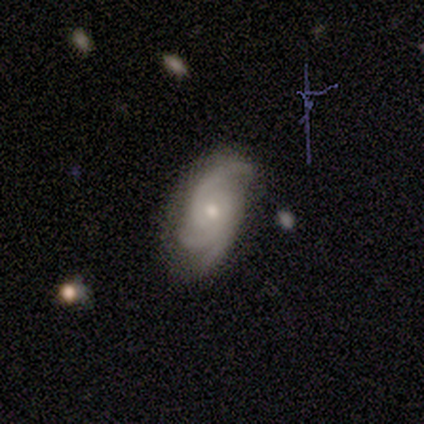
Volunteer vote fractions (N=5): Smooth or featured? featured or disk (100%)
Edge-on disk? no (80%)
Bar? no (100%)
Spiral arms? yes (100%)
Spiral winding? tight (50%, tied with loose)
Spiral arm count? 3 (75%)
Bulge size? moderate (50%, tied with small)
Merging? none (80%)